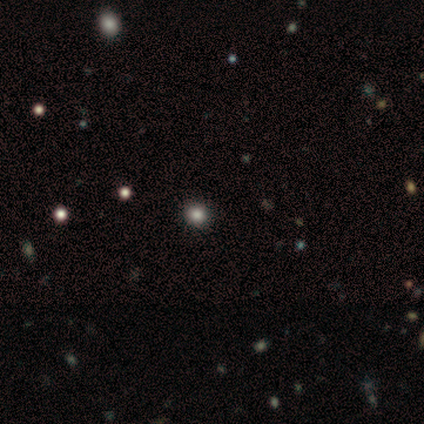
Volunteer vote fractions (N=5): Smooth or featured?
  - smooth: 60% *
  - star or artifact: 40%
  - featured or disk: 0%
How rounded?
  - round: 100% *
  - in between: 0%
  - cigar-shaped: 0%
Merging?
  - none: 67% *
  - minor disturbance: 33%
  - major disturbance: 0%
  - merger: 0%